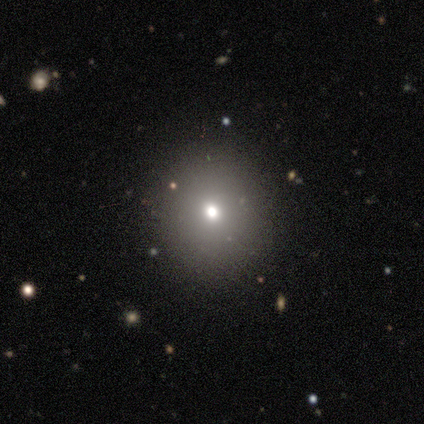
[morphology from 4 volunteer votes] Smooth or featured? smooth (75%)
How rounded? round (100%)
Merging? none (67%)